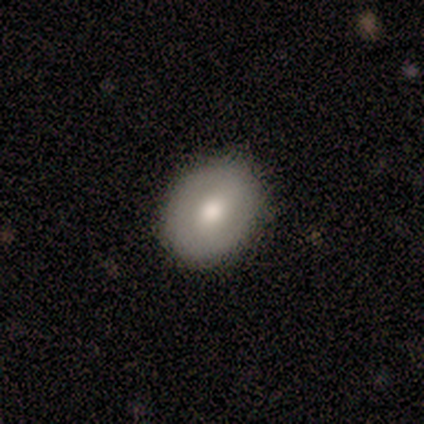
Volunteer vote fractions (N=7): Q: Smooth or featured?
A: smooth (57%); runner-up: featured or disk (29%)
Q: How rounded?
A: in between (75%); runner-up: round (25%)
Q: Merging?
A: none (100%)